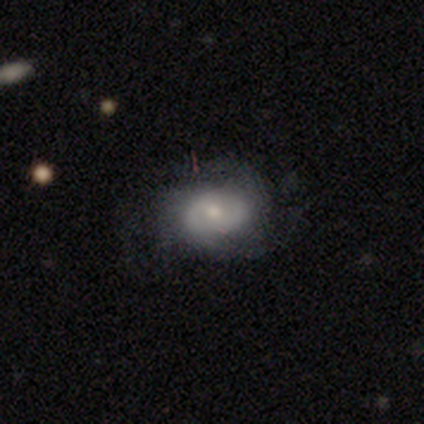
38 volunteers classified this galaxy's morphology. featured or disk 61%, smooth 37%, star or artifact 3%. Down the decision tree: edge-on disk — no (100%); bar — no (70%); spiral arms — yes (87%); spiral arm count — can't tell (45%); spiral winding — tight (45%); bulge size — moderate (65%); merging — none (49%).